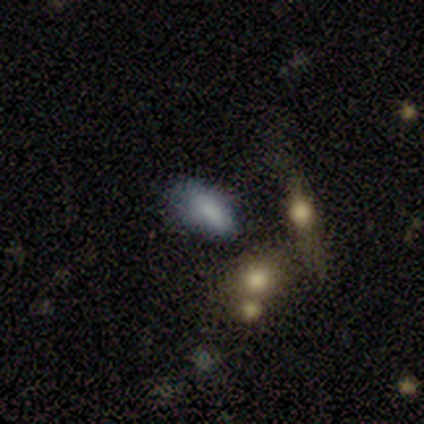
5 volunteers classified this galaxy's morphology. type=smooth (60%); roundness=in between (67%); merging=major disturbance (75%).